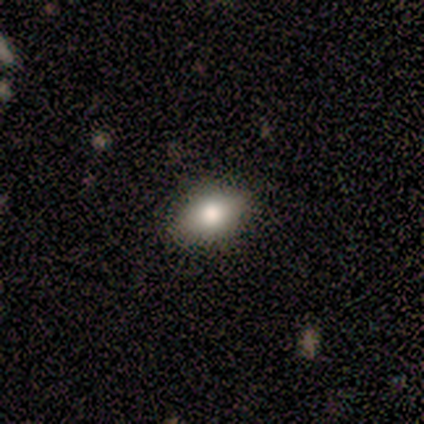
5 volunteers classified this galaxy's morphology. A smooth galaxy with no disk features (60%) that is in between round and cigar-shaped (100%).

Vote fractions:
- Smooth or featured? smooth: 60% / featured or disk: 20% / star or artifact: 20%
- How rounded? in between: 100% / round: 0% / cigar-shaped: 0%
- Merging? none: 75% / minor disturbance: 25% / major disturbance: 0% / merger: 0%